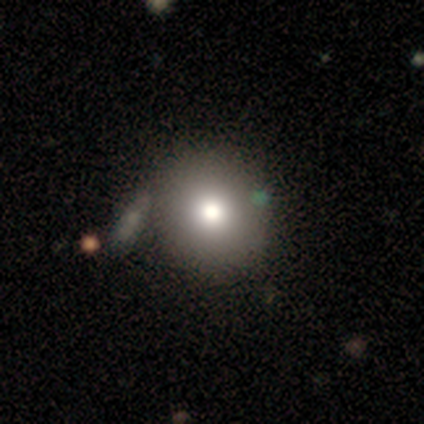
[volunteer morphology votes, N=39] smooth_or_featured: smooth (p=0.77) [alt: featured or disk p=0.13]
how_rounded: round (p=0.83) [alt: in between p=0.17]
merging: none (p=0.49) [alt: merger p=0.20]